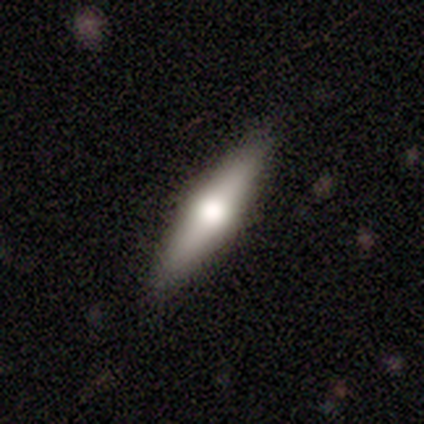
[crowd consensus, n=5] Smooth or featured?
  - featured or disk: 60% *
  - smooth: 20%
  - star or artifact: 20%
Edge-on disk?
  - yes: 67% *
  - no: 33%
Edge-on bulge?
  - rounded: 100% *
  - boxy: 0%
  - none: 0%
Merging?
  - none: 75% *
  - minor disturbance: 25%
  - major disturbance: 0%
  - merger: 0%